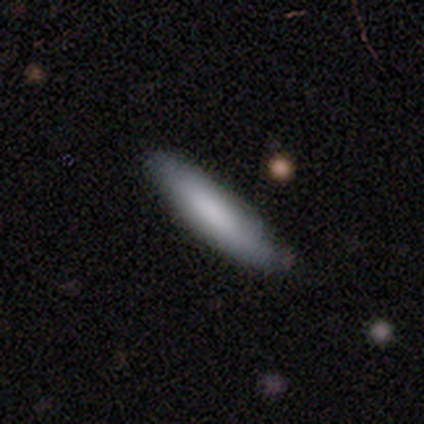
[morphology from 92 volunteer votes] Overall: smooth (80%). How rounded: cigar-shaped (88%). Merging: none (79%).